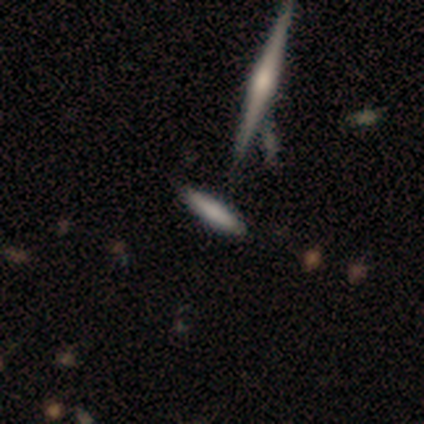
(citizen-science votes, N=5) A smooth galaxy with no disk features (80%) that is cigar-shaped (100%).

Vote fractions:
- Smooth or featured? smooth: 80% / star or artifact: 20% / featured or disk: 0%
- How rounded? cigar-shaped: 100% / round: 0% / in between: 0%
- Merging? none: 100% / minor disturbance: 0% / major disturbance: 0% / merger: 0%